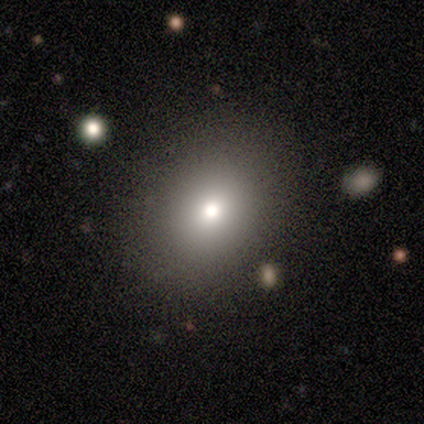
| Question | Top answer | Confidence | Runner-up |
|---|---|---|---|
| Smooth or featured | smooth | 100% | — |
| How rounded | in between | 100% | — |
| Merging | minor disturbance | 100% | — |